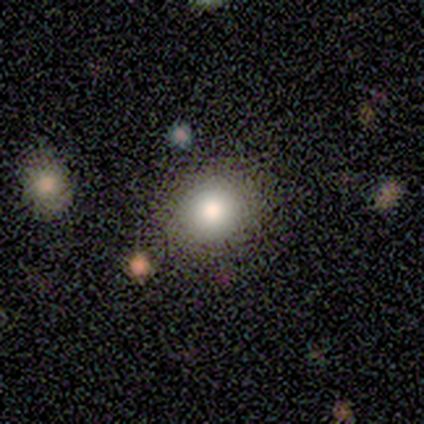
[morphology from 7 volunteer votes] This is likely a smooth galaxy (71%). How rounded: clearly round (100%). Merging: clearly none (100%).